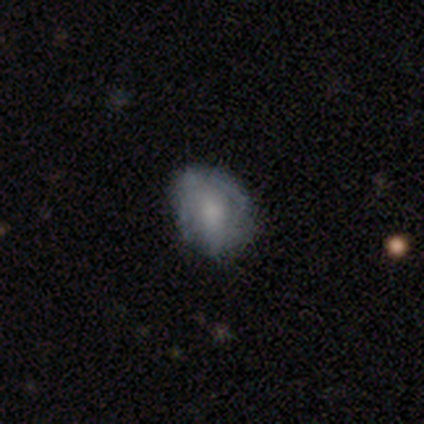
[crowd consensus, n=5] Smooth or featured?
  - featured or disk: 60% *
  - smooth: 40%
  - star or artifact: 0%
Edge-on disk?
  - no: 100% *
  - yes: 0%
Bar?
  - no: 100% *
  - strong: 0%
  - weak: 0%
Spiral arms?
  - no: 67% *
  - yes: 33%
Bulge size?
  - large: 67% *
  - moderate: 33%
  - dominant: 0%
  - small: 0%
  - none: 0%
Merging?
  - none: 60% *
  - minor disturbance: 40%
  - major disturbance: 0%
  - merger: 0%